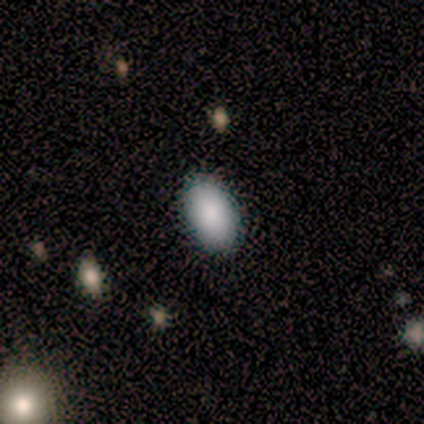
This appears to be a smooth galaxy with no disk features (83%) that is in between round and cigar-shaped (100%). Merging: none (100%).